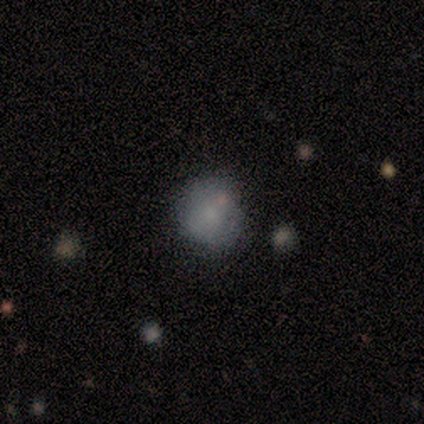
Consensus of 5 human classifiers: Q: Smooth or featured?
A: smooth (60%); runner-up: featured or disk (20%)
Q: How rounded?
A: round (100%)
Q: Merging?
A: none (75%); runner-up: major disturbance (25%)